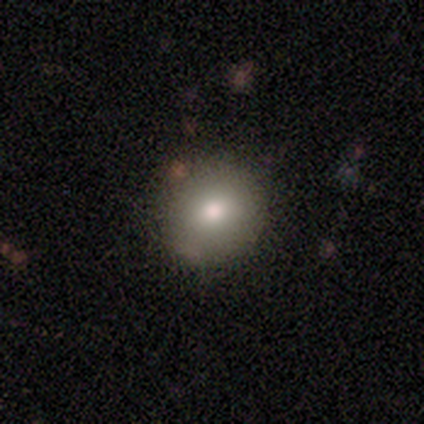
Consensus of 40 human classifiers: Smooth or featured? 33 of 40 (82%) said smooth. How rounded? 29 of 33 (88%) said round. Merging? 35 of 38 (92%) said none.